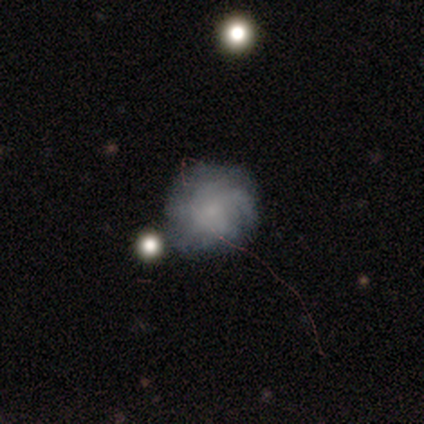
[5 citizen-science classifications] smooth_or_featured: featured or disk (p=0.60) [alt: smooth p=0.20]
disk_edge_on: no (p=1.00)
bar: no (p=1.00)
has_spiral_arms: yes (p=1.00)
spiral_winding: tight (p=1.00)
spiral_arm_count: can't tell (p=0.67) [alt: 1 p=0.33]
bulge_size: small (p=1.00)
merging: none (p=1.00)